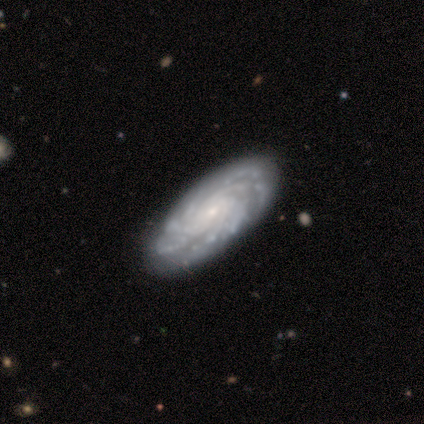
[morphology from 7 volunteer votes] A featured or disk galaxy (86%) with no bar (100%), tight (100%) spiral arms (100%) and a small central bulge (80%). Merging: none (67%).